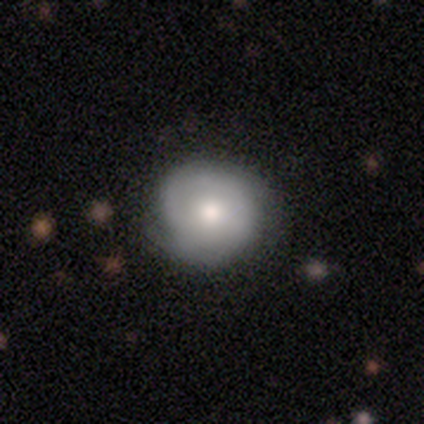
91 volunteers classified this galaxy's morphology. Overall: smooth (51%; featured or disk 45%). How rounded: round (89%). Merging: none (75%).